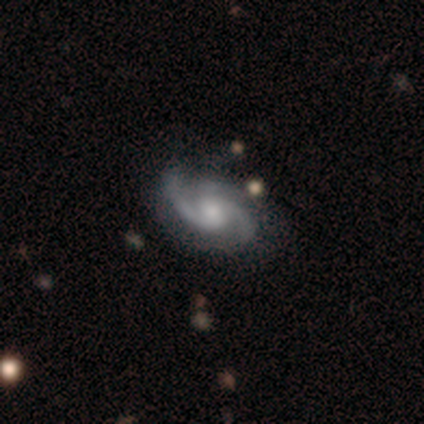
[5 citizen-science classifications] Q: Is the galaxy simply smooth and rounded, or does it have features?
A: featured or disk — 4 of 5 (80%).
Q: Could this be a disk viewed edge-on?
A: no — 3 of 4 (75%).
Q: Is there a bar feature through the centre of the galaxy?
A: weak — 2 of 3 (67%).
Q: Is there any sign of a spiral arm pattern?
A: yes — 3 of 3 (100%).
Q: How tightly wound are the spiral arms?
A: medium — 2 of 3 (67%).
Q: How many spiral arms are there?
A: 3 — 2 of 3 (67%).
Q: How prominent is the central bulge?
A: moderate — 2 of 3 (67%).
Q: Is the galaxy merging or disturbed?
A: none — 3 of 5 (60%).